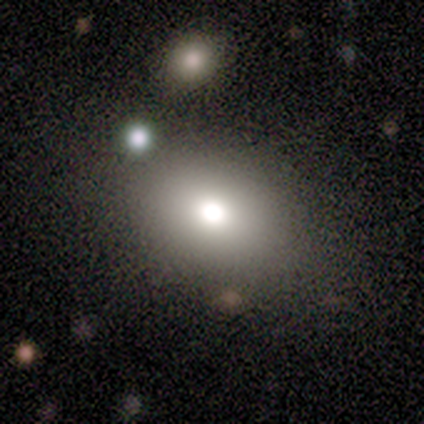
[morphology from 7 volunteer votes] Volunteers were most divided on "smooth or featured": star or artifact: 57%, smooth: 29%, featured or disk: 14%.